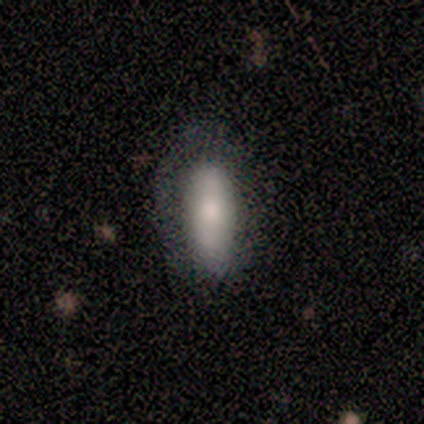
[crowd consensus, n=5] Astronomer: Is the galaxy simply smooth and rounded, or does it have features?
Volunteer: featured or disk — 60% (runner-up: smooth, 40%).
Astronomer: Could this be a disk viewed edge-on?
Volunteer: no — 67%.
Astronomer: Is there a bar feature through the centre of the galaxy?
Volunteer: no — 100%.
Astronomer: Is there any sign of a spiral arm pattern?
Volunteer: no — 100%.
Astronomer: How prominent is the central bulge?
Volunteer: dominant — 50%, tied with moderate at 50%.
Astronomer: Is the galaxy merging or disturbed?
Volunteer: none — 60%.